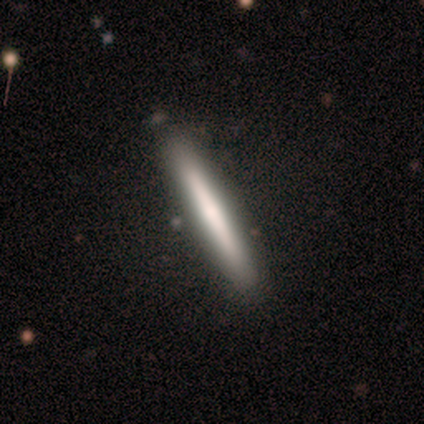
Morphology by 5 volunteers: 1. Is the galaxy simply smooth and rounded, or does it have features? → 60% featured or disk, 40% smooth, 0% star or artifact.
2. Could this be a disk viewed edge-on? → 100% yes, 0% no.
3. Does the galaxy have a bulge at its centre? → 67% none, 33% rounded, 0% boxy.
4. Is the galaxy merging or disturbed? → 100% none, 0% minor disturbance, 0% major disturbance, 0% merger.